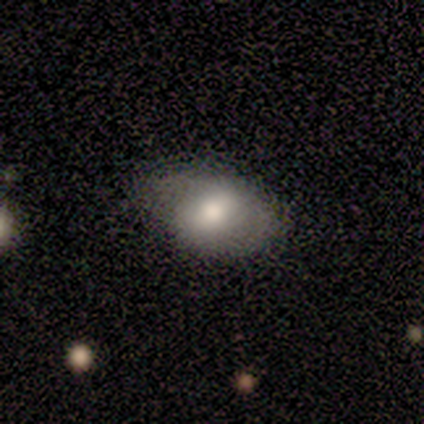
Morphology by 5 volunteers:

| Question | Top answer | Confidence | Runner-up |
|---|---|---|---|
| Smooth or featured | smooth | 80% | featured or disk (20%) |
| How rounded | in between | 100% | — |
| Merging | none | 60% | minor disturbance (20%) |